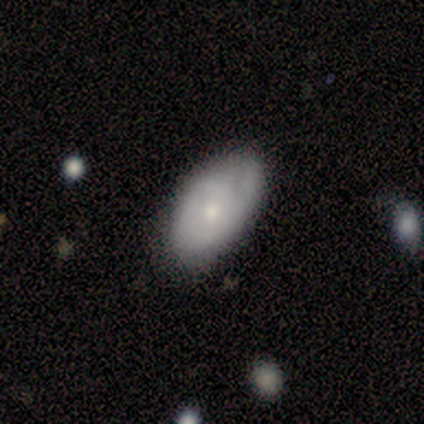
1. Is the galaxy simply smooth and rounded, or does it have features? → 77% smooth, 23% featured or disk, 0% star or artifact.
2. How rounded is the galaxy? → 100% in between, 0% round, 0% cigar-shaped.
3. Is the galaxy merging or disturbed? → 77% none, 15% major disturbance, 8% minor disturbance, 0% merger.